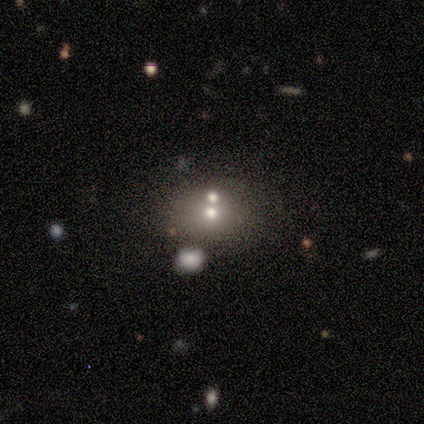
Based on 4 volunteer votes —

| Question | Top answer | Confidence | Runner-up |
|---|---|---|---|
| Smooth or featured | featured or disk | 50% | smooth (25%) |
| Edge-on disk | no | 100% | — |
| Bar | no | 100% | — |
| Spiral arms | no | 100% | — |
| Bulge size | moderate | 100% | — |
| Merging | merger | 67% | minor disturbance (33%) |